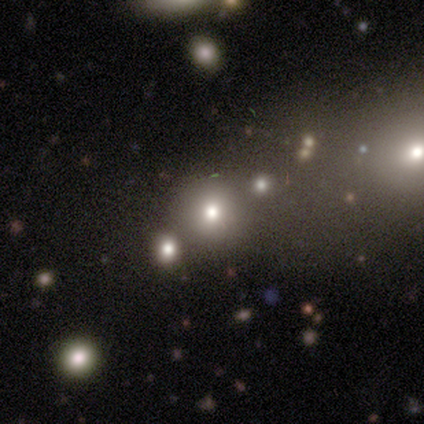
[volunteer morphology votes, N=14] smooth 50%, star or artifact 43%, featured or disk 7%. Down the decision tree: how rounded — round (86%); merging — none (100%).